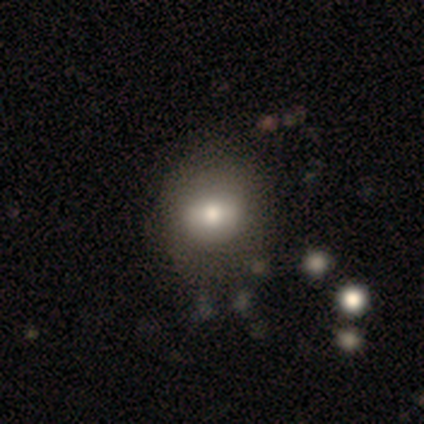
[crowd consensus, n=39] This appears to be a smooth galaxy with no disk features (67%) that is round (69%). Merging: none (49%).